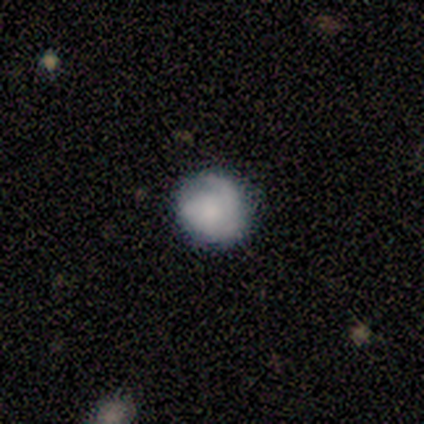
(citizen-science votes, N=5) smooth-or-featured: smooth: 60% | featured or disk: 40% | star or artifact: 0%
  how-rounded: round: 100% | in between: 0% | cigar-shaped: 0%
  merging: none: 80% | major disturbance: 20% | minor disturbance: 0% | merger: 0%